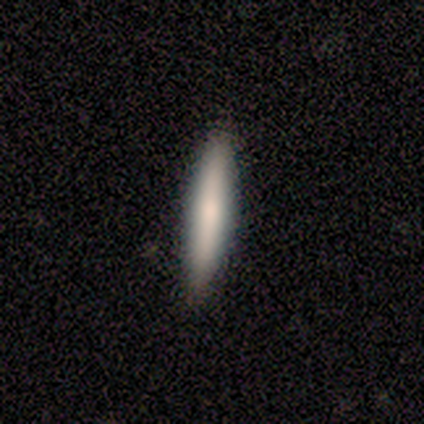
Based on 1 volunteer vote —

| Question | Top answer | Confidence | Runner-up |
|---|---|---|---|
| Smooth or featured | smooth | 100% | — |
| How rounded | cigar-shaped | 100% | — |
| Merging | none | 100% | — |